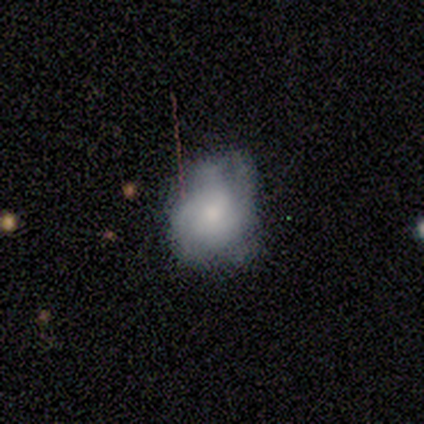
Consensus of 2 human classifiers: Q: Smooth or featured?
A: featured or disk (100%)
Q: Edge-on disk?
A: no (100%)
Q: Bar?
A: no (100%)
Q: Spiral arms?
A: yes (50%); tied with: no (50%)
Q: Spiral winding?
A: medium (100%)
Q: Spiral arm count?
A: can't tell (100%)
Q: Bulge size?
A: moderate (100%)
Q: Merging?
A: none (50%); tied with: major disturbance (50%)